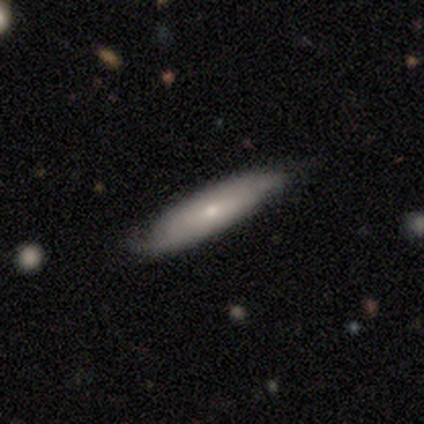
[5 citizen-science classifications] A featured or disk galaxy (60%) with no bar (100%), tight (50%, tied with medium) spiral arms (100%) and a moderate central bulge (100%).

Vote fractions:
- Smooth or featured? featured or disk: 60% / smooth: 20% / star or artifact: 20%
- Edge-on disk? no: 67% / yes: 33%
- Bar? no: 100% / strong: 0% / weak: 0%
- Spiral arms? yes: 100% / no: 0%
- Spiral winding? tight: 50% (tied) / medium: 50% (tied) / loose: 0%
- Spiral arm count? can't tell: 100% / 1: 0% / 2: 0% / 3: 0% / 4: 0% / more than 4: 0%
- Bulge size? moderate: 100% / dominant: 0% / large: 0% / small: 0% / none: 0%
- Merging? none: 75% / minor disturbance: 25% / major disturbance: 0% / merger: 0%